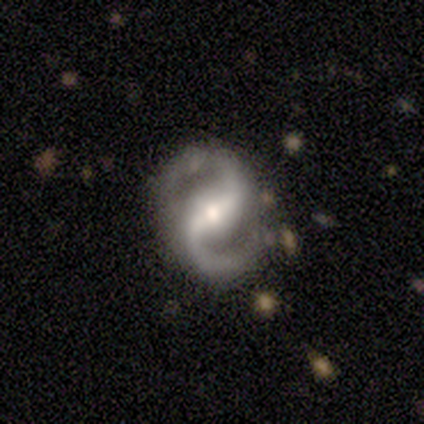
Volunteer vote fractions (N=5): This is clearly a featured or disk galaxy (100%). It is clearly not viewed edge-on (100%). Bar: likely weak (60%). Spiral arm pattern: clearly yes (100%). Spiral arm count: clearly 2 (100%). Spiral winding: likely medium (60%). Central bulge: likely moderate (60%). Merging: clearly none (100%).